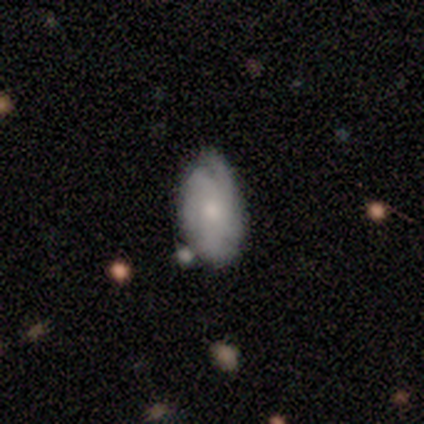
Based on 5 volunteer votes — smooth-or-featured: smooth: 60% | featured or disk: 20% | star or artifact: 20%
  how-rounded: in between: 67% | round: 33% | cigar-shaped: 0%
  merging: none: 100% | minor disturbance: 0% | major disturbance: 0% | merger: 0%